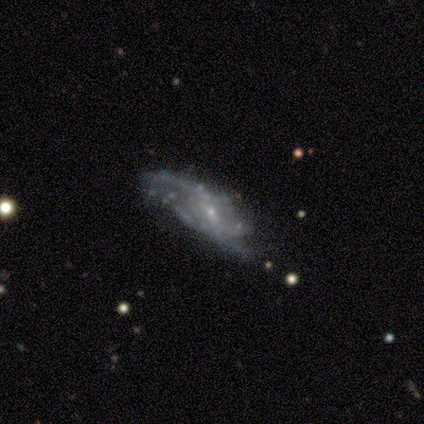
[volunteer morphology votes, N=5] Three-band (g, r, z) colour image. It shows a smooth galaxy with no disk features (40%, tied with featured or disk) that is in between round and cigar-shaped (100%). Merging: minor disturbance (50%).